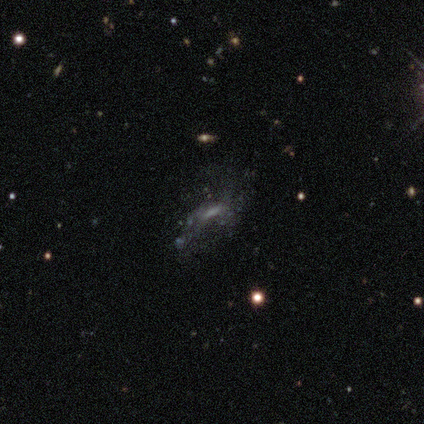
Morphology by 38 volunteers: type=featured or disk (45%); edge-on=no (94%); bar=no (50%); spiral arms=no (62%); bulge=none (62%); merging=none (53%).